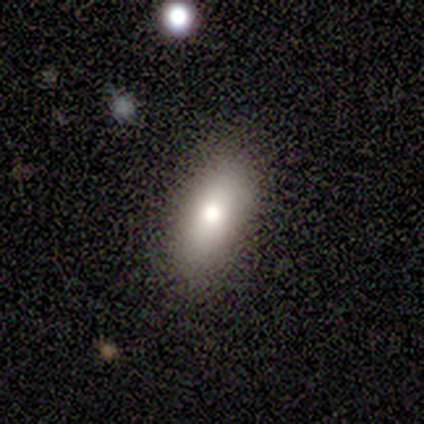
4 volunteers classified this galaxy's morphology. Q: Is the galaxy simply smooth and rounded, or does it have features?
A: smooth — 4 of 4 (100%).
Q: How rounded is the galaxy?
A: in between — 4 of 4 (100%).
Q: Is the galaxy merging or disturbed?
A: none — 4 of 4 (100%).